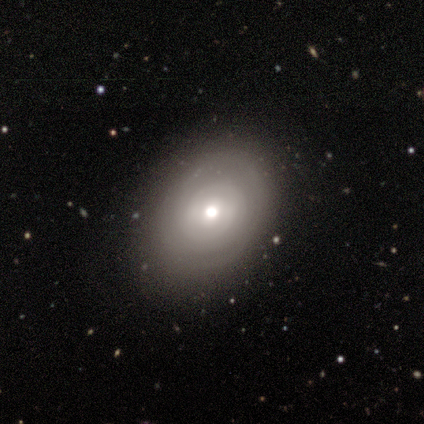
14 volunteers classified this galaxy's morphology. smooth_or_featured: featured or disk (p=0.57) [alt: smooth p=0.36]
disk_edge_on: no (p=1.00)
bar: no (p=0.62) [alt: weak p=0.25]
has_spiral_arms: yes (p=0.62) [alt: no p=0.38]
spiral_winding: tight (p=0.80) [alt: medium p=0.20]
spiral_arm_count: 2 (p=0.40) [tied with: can't tell p=0.40]
bulge_size: moderate (p=0.62) [alt: small p=0.38]
merging: none (p=0.85) [alt: minor disturbance p=0.08]